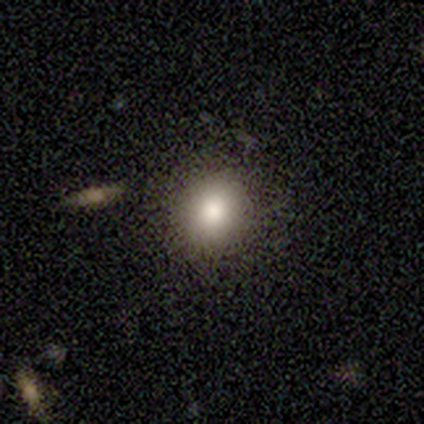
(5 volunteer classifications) Q: Smooth or featured?
A: star or artifact (60%); runner-up: smooth (40%)